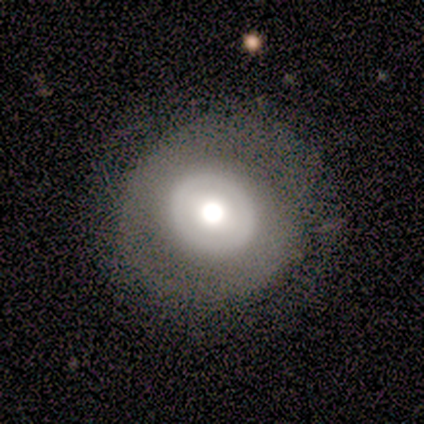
Q: Smooth or featured?
A: smooth (55%); runner-up: featured or disk (34%)
Q: How rounded?
A: round (86%); runner-up: in between (10%)
Q: Merging?
A: none (71%); runner-up: minor disturbance (15%)